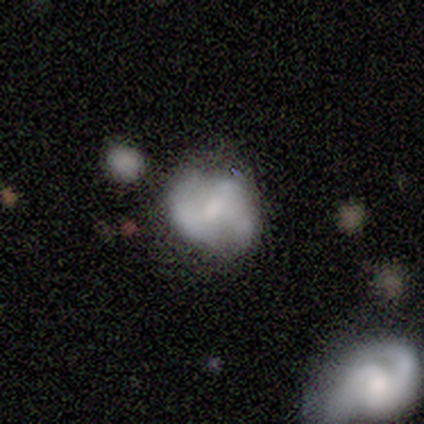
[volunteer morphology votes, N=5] Smooth or featured?
  - featured or disk: 60% *
  - smooth: 40%
  - star or artifact: 0%
Edge-on disk?
  - no: 100% *
  - yes: 0%
Bar?
  - strong: 33% * (tied)
  - weak: 33% * (tied)
  - no: 33% * (tied)
Spiral arms?
  - yes: 67% *
  - no: 33%
Spiral winding?
  - medium: 50% * (tied)
  - loose: 50% * (tied)
  - tight: 0%
Spiral arm count?
  - 2: 100% *
  - 1: 0%
  - 3: 0%
  - 4: 0%
  - more than 4: 0%
  - can't tell: 0%
Bulge size?
  - large: 33% * (tied)
  - moderate: 33% * (tied)
  - none: 33% * (tied)
  - dominant: 0%
  - small: 0%
Merging?
  - none: 60% *
  - minor disturbance: 20%
  - major disturbance: 20%
  - merger: 0%